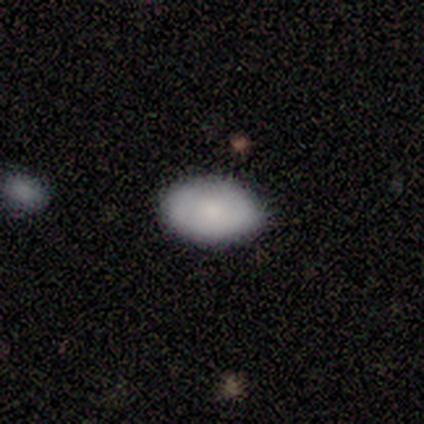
Q: Smooth or featured?
A: smooth (87%); runner-up: featured or disk (13%)
Q: How rounded?
A: in between (100%)
Q: Merging?
A: none (100%)